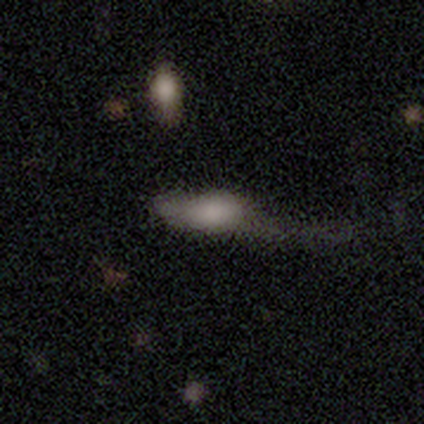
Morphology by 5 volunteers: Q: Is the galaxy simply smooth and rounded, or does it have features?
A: smooth — 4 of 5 (80%).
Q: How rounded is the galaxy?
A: in between — 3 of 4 (75%).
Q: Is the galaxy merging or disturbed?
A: none — 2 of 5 (40%, tied with major disturbance).